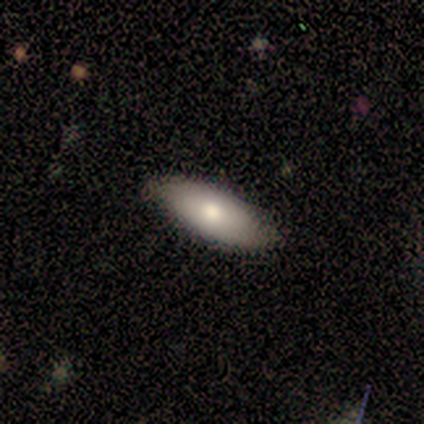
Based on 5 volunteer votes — This appears to be a smooth galaxy with no disk features (100%) that is in between round and cigar-shaped (100%). Merging: none (80%).